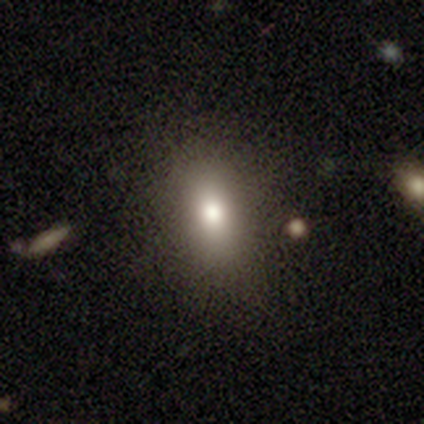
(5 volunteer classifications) A smooth galaxy with no disk features (100%) that is in between round and cigar-shaped (80%). Merging: none (100%).